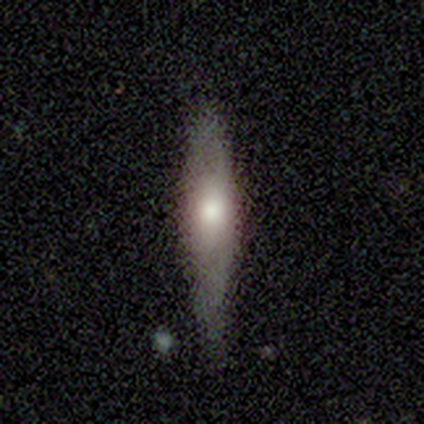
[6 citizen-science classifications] Morphology: type=smooth (50%, tied with featured or disk); roundness=cigar-shaped (100%); merging=none (50%, tied with minor disturbance).